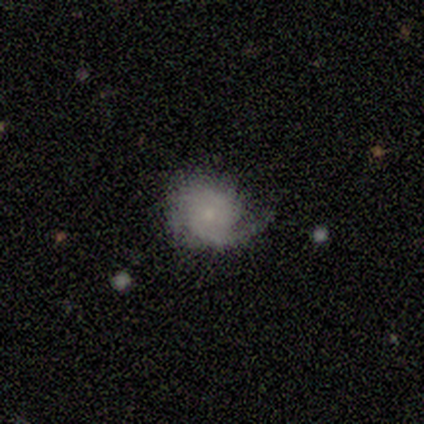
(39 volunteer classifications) This appears to be a featured or disk galaxy (72%) with no bar (78%), 2 (38%) tight (42%, tied with medium) spiral arms (96%) and a small central bulge (59%). Merging: none (59%).